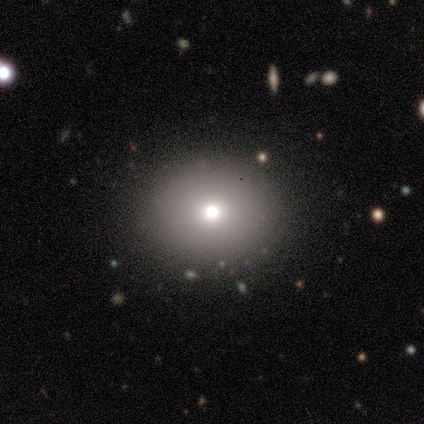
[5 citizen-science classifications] Smooth or featured: smooth — 60% (star or artifact — 40%)
How rounded: in between — 67% (round — 33%)
Merging: none — 100%